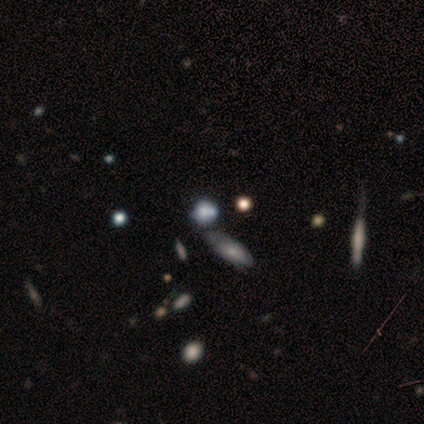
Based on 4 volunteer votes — Morphology: type=smooth (75%); roundness=round (67%); merging=none (67%).